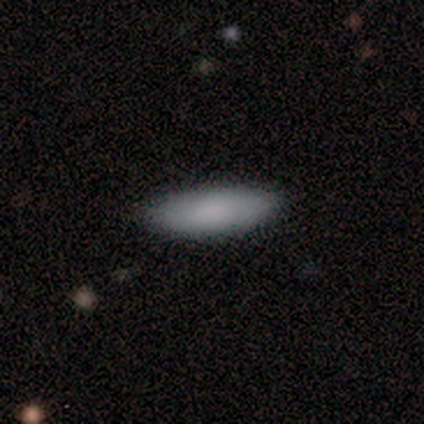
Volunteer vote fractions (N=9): This appears to be a smooth galaxy with no disk features (78%) that is in between round and cigar-shaped (71%). Merging: none (100%).